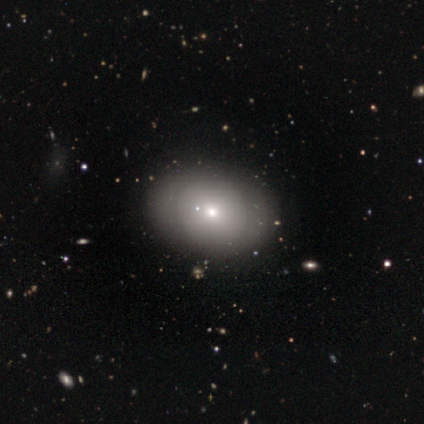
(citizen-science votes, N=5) smooth_or_featured: smooth (p=1.00)
how_rounded: in between (p=0.60) [alt: round p=0.40]
merging: none (p=0.80) [alt: minor disturbance p=0.20]